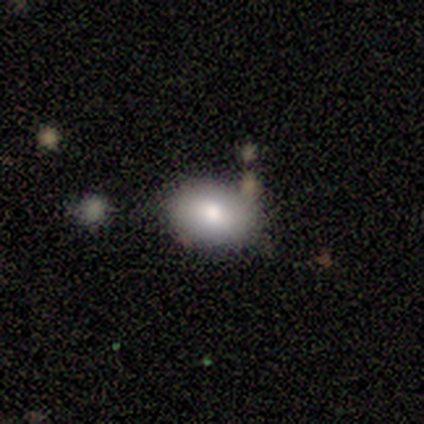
This is likely a smooth galaxy (60%). How rounded: likely in between (67%). Merging: likely none (75%).